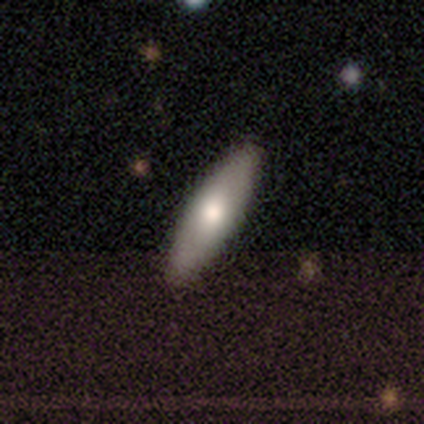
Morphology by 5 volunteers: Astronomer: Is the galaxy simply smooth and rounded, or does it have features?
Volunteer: featured or disk — 60%.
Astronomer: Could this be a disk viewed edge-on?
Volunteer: yes — 67%.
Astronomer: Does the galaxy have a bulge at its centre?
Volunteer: rounded — 100%.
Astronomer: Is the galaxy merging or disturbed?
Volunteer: none — 100%.